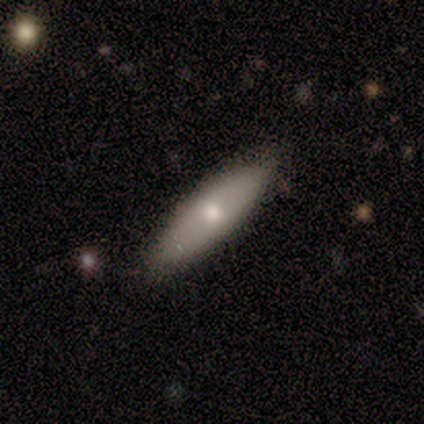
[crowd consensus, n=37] This is possibly a smooth galaxy (51%). How rounded: possibly cigar-shaped (53%). Merging: clearly none (89%).